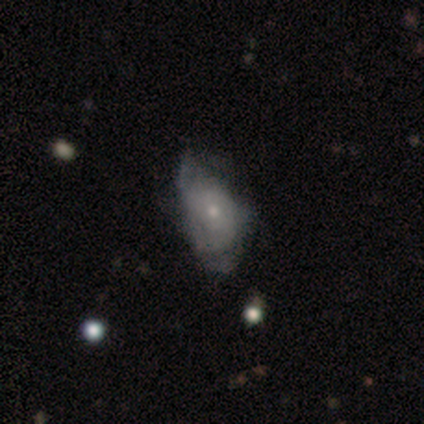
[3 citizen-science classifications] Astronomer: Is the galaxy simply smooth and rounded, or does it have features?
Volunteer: smooth — 67%.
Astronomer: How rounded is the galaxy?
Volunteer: in between — 50%, tied with cigar-shaped at 50%.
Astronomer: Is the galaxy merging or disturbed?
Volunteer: minor disturbance — 100%.